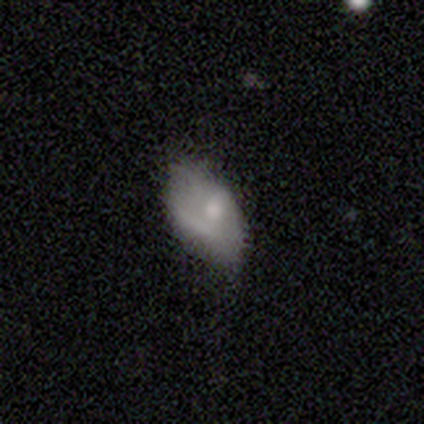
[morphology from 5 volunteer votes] Overall: smooth (40%, tied with star or artifact). How rounded: in between (100%). Merging: none (67%; minor disturbance 33%).